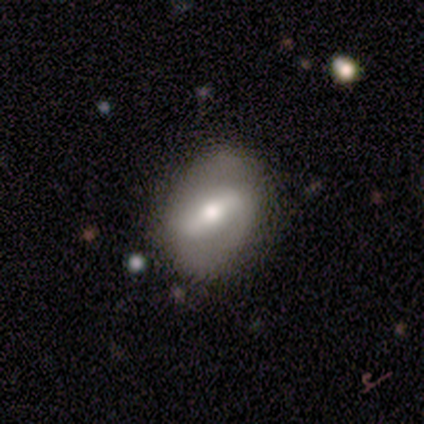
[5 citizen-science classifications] smooth-or-featured: featured or disk: 60% | smooth: 40% | star or artifact: 0%
  disk-edge-on: no: 67% | yes: 33%
    bar: strong: 100% | weak: 0% | no: 0%
    has-spiral-arms: yes: 100% | no: 0%
      spiral-winding: medium: 50% (tied) | loose: 50% (tied) | tight: 0%
      spiral-arm-count: 2: 100% | 1: 0% | 3: 0% | 4: 0% | more than 4: 0% | can't tell: 0%
    bulge-size: moderate: 100% | dominant: 0% | large: 0% | small: 0% | none: 0%
  merging: none: 60% | minor disturbance: 20% | major disturbance: 20% | merger: 0%